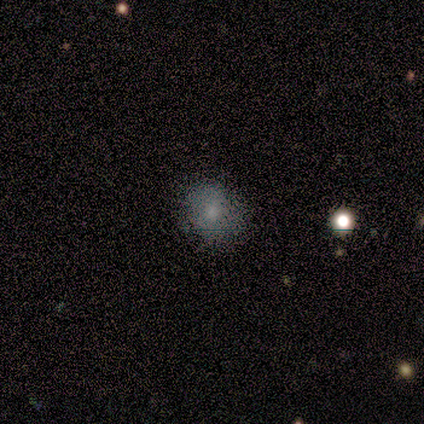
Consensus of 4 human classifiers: Smooth or featured? 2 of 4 (50%, tied with star or artifact) said smooth. How rounded? 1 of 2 (50%, tied with in between) said round. Merging? 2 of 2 (100%) said none.